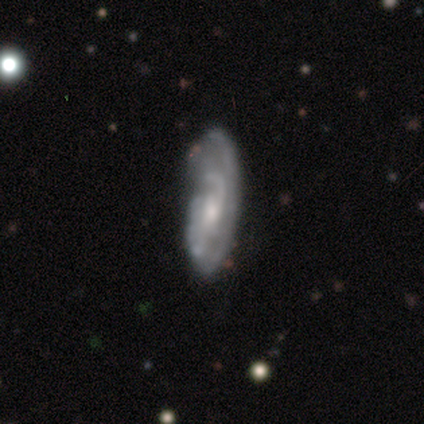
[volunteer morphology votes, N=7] type=featured or disk (100%); edge-on=no (100%); bar=no (57%); spiral arms=yes (100%); winding=medium (71%); arm count=2 (43%); bulge=small (71%); merging=none (57%).